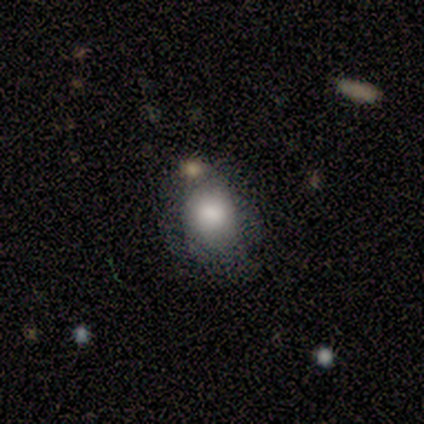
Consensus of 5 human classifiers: smooth-or-featured: smooth: 100% | featured or disk: 0% | star or artifact: 0%
  how-rounded: round: 80% | in between: 20% | cigar-shaped: 0%
  merging: merger: 40% | none: 20% | minor disturbance: 20% | major disturbance: 20%